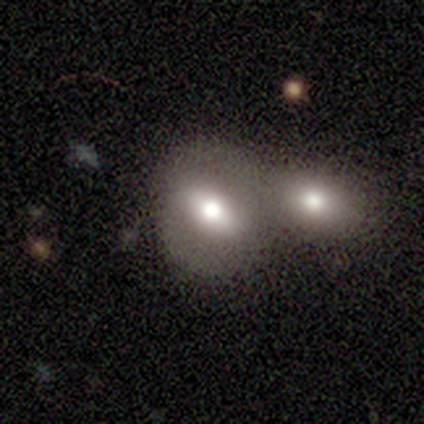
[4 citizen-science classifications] Smooth or featured? smooth (50%)
How rounded? round (50%, tied with in between)
Merging? merger (67%)